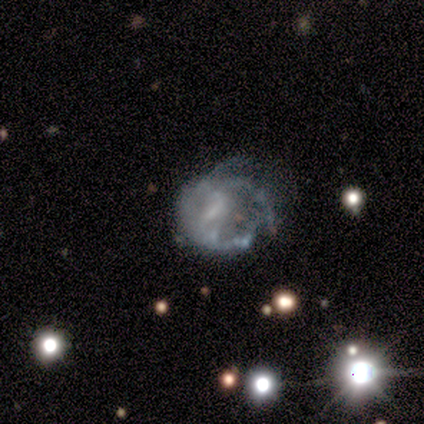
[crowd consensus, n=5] Overall: featured or disk (80%). Edge-on disk: no (100%). Bar: weak (50%, tied with no). Spiral arms: yes (50%, tied with no). Spiral arm count: 1 (50%, tied with 2). Spiral winding: medium (50%, tied with loose). Bulge size: small (50%; moderate 25%). Merging: major disturbance (80%).